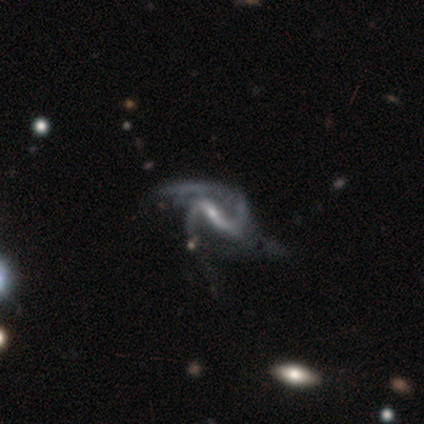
featured or disk 94%, smooth 4%, star or artifact 2%. Down the decision tree: edge-on disk — no (100%); bar — strong (65%); spiral arms — yes (96%); spiral arm count — 2 (89%); spiral winding — loose (56%); bulge size — small (72%); merging — major disturbance (24%).